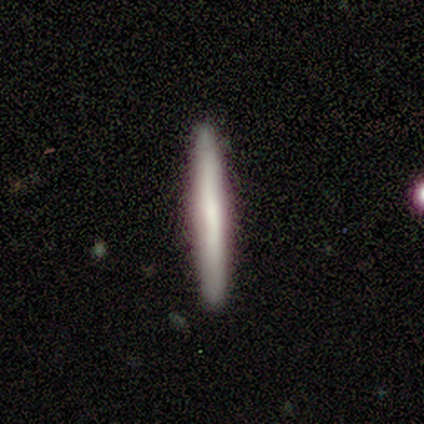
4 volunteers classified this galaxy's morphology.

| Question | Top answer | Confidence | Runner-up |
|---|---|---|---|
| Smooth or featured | featured or disk | 100% | — |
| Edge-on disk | yes | 100% | — |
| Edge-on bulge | rounded | 50% | boxy (25%) |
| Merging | none | 100% | — |